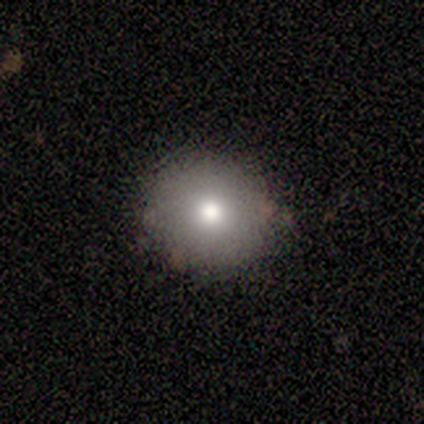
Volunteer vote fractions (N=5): Q: Smooth or featured?
A: smooth (80%); runner-up: featured or disk (20%)
Q: How rounded?
A: round (50%); tied with: in between (50%)
Q: Merging?
A: none (80%); runner-up: merger (20%)